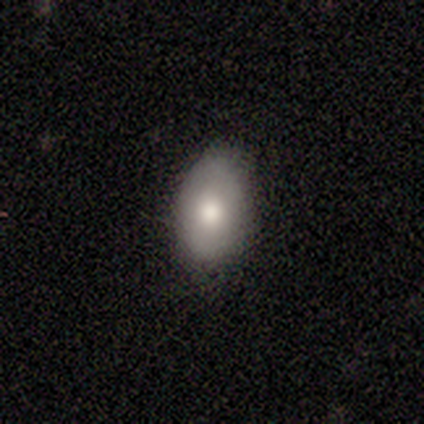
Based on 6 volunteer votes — Consensus on every question: smooth or featured — smooth (100%); how rounded — in between (100%); merging — none (100%).